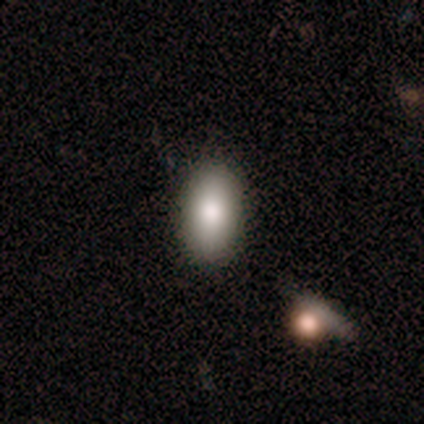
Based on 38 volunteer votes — This is clearly a smooth galaxy (92%). How rounded: clearly in between (94%). Merging: clearly none (87%).